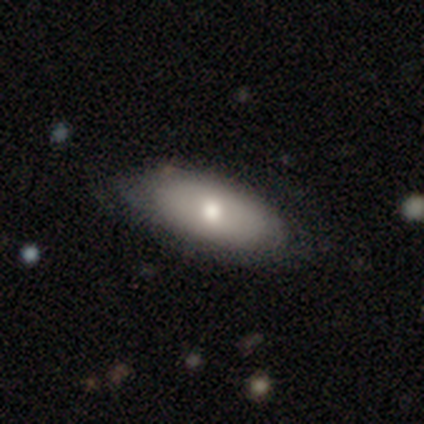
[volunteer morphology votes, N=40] Overall: smooth (62%; featured or disk 32%). How rounded: in between (84%). Merging: none (53%; minor disturbance 24%).